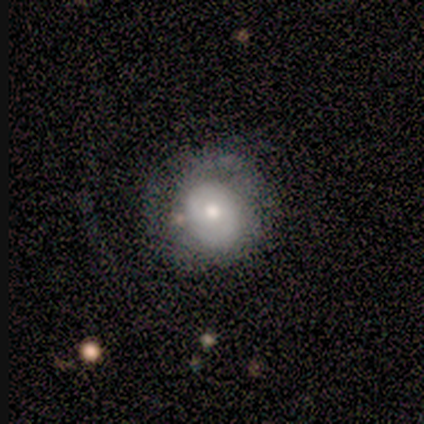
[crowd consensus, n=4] smooth 75%, featured or disk 25%, star or artifact 0%. Down the decision tree: how rounded — round (67%); merging — none (75%).